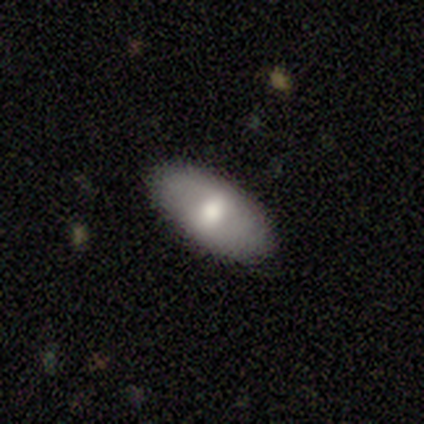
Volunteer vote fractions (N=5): Smooth or featured? 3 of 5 (60%) said smooth. How rounded? 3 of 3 (100%) said in between. Merging? 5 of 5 (100%) said none.